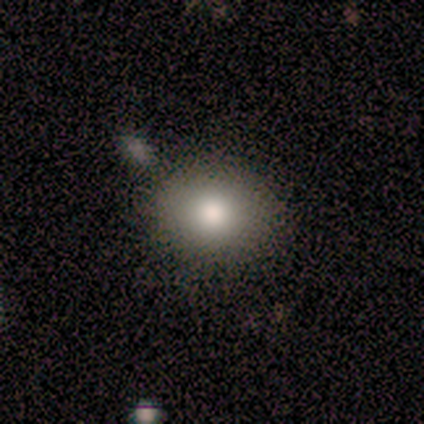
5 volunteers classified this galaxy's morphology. type=smooth (80%); roundness=round (75%); merging=none (80%).